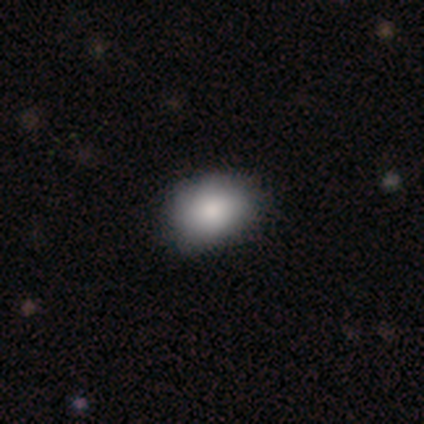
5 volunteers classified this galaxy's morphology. Smooth or featured? 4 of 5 (80%) said smooth. How rounded? 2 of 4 (50%, tied with in between) said round. Merging? 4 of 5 (80%) said none.